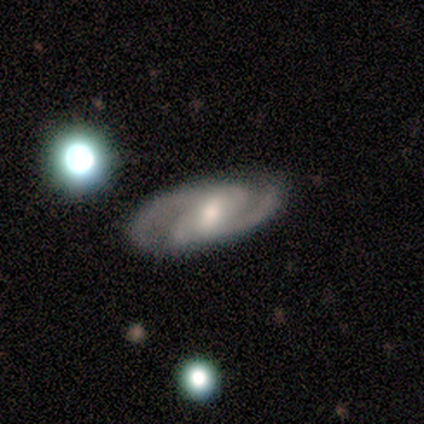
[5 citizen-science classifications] Overall: featured or disk (100%). Edge-on disk: no (100%). Bar: strong (40%, tied with weak). Spiral arms: yes (100%). Spiral arm count: 2 (80%). Spiral winding: medium (60%; tight 40%). Bulge size: moderate (60%; small 20%). Merging: none (60%; minor disturbance 40%).